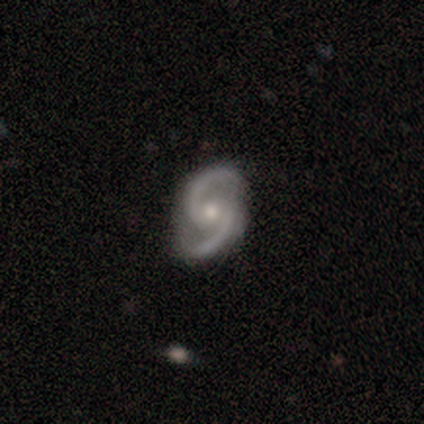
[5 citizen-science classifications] smooth_or_featured: featured or disk (p=1.00)
disk_edge_on: no (p=1.00)
bar: weak (p=0.40) [tied with: no p=0.40]
has_spiral_arms: yes (p=1.00)
spiral_winding: medium (p=1.00)
spiral_arm_count: 2 (p=1.00)
bulge_size: moderate (p=0.60) [alt: small p=0.40]
merging: none (p=1.00)